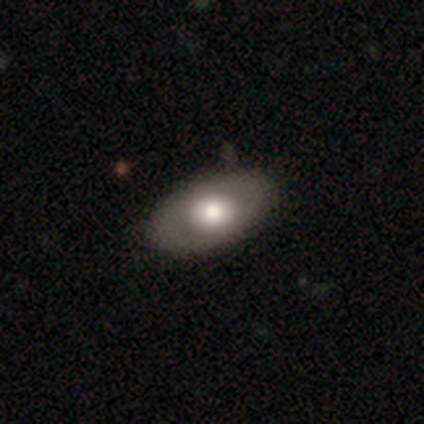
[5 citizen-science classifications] This is clearly a featured or disk galaxy (100%). It is clearly not viewed edge-on (80%). Bar: clearly no (100%). Spiral arm pattern: likely no (75%). Central bulge: possibly large (50%, tied with moderate). Merging: clearly none (100%).